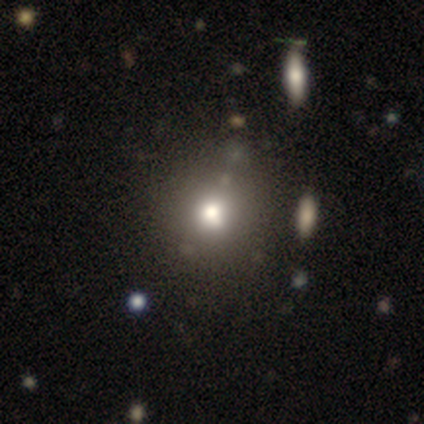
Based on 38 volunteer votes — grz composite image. It shows a smooth galaxy with no disk features (74%) that is round (96%). Merging: none (50%).